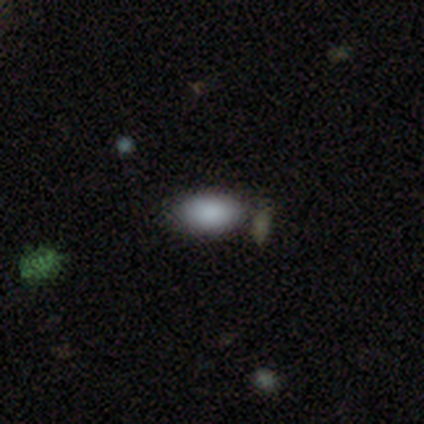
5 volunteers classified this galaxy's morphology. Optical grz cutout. It shows a smooth galaxy with no disk features (80%) that is in between round and cigar-shaped (100%). Merging: none (50%, tied with minor disturbance).